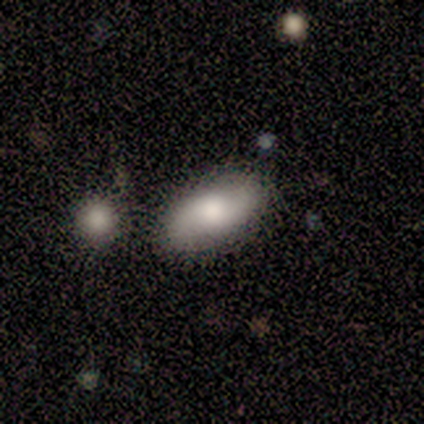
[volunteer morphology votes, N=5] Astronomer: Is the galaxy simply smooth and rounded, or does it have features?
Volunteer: featured or disk — 60% (runner-up: smooth, 40%).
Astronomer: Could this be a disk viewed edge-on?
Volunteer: no — 100%.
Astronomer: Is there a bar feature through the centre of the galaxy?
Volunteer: no — 67%.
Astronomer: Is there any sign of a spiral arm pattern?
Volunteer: yes — 100%.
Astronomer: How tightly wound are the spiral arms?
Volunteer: loose — 67%.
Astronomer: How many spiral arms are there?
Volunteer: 2 — 100%.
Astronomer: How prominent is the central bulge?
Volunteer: moderate — 67%.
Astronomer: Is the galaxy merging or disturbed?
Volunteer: none — 100%.